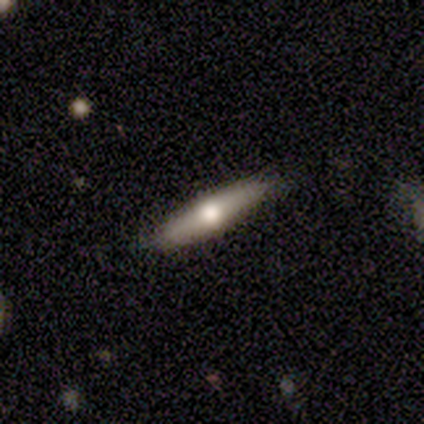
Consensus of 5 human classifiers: smooth-or-featured: featured or disk: 60% | smooth: 40% | star or artifact: 0%
  disk-edge-on: yes: 100% | no: 0%
    edge-on-bulge: rounded: 100% | boxy: 0% | none: 0%
  merging: none: 80% | merger: 20% | minor disturbance: 0% | major disturbance: 0%